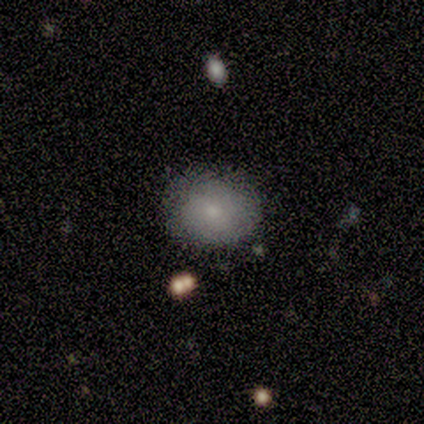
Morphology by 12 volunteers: Smooth or featured? smooth (100%)
How rounded? in between (58%)
Merging? none (92%)